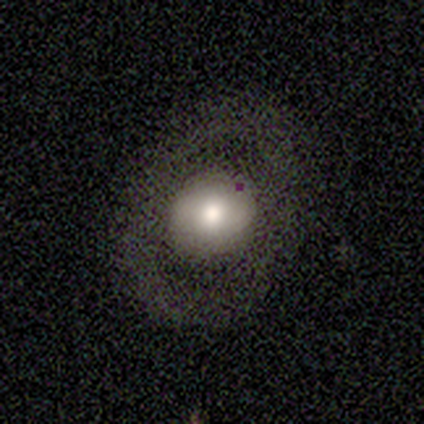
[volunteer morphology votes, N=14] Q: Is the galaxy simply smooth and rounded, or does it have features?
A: smooth — 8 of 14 (57%).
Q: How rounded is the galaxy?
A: round — 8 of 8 (100%).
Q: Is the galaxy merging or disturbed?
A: none — 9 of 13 (69%).